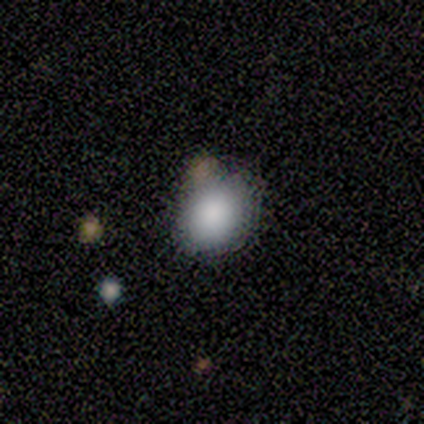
smooth 100%, featured or disk 0%, star or artifact 0%. Down the decision tree: how rounded — in between (60%); merging — none (60%).